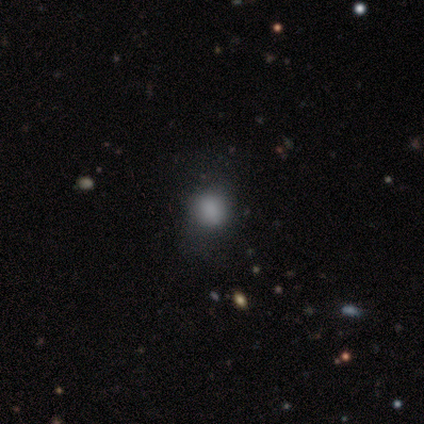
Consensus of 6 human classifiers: Smooth or featured?
  - smooth: 100% *
  - featured or disk: 0%
  - star or artifact: 0%
How rounded?
  - round: 67% *
  - in between: 33%
  - cigar-shaped: 0%
Merging?
  - minor disturbance: 50% *
  - none: 33%
  - merger: 17%
  - major disturbance: 0%